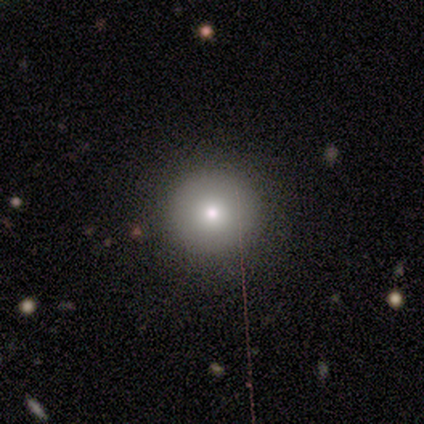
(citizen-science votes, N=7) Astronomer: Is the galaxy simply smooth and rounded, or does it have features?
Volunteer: smooth — 71%.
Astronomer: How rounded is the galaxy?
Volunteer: round — 100%.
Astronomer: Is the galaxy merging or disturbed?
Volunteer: none — 83%.